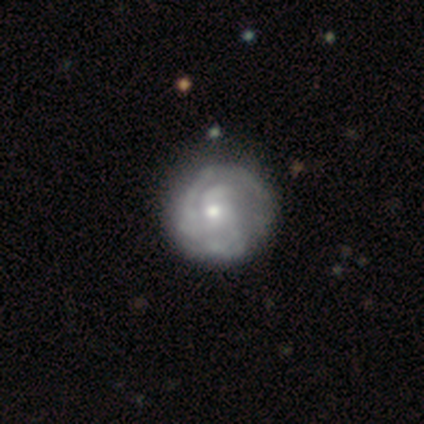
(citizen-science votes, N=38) Q: Smooth or featured?
A: featured or disk (84%); runner-up: smooth (16%)
Q: Edge-on disk?
A: no (100%)
Q: Bar?
A: no (88%); runner-up: strong (6%)
Q: Spiral arms?
A: yes (88%); runner-up: no (12%)
Q: Spiral winding?
A: tight (82%); runner-up: medium (18%)
Q: Spiral arm count?
A: can't tell (50%); runner-up: 3 (21%)
Q: Bulge size?
A: moderate (50%); runner-up: small (47%)
Q: Merging?
A: none (42%); runner-up: minor disturbance (8%)